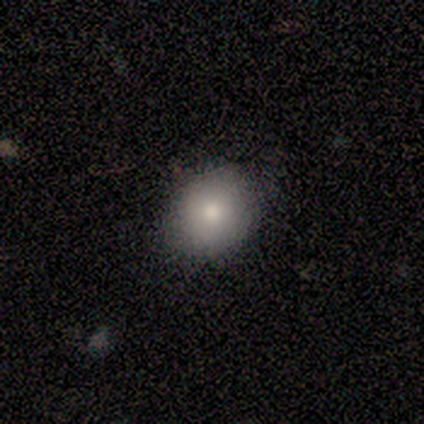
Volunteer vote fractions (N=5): Overall: smooth (100%). How rounded: round (60%; in between 40%). Merging: none (100%).